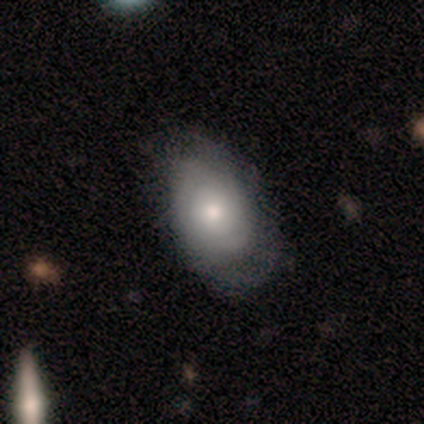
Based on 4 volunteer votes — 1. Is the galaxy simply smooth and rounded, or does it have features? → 100% smooth, 0% featured or disk, 0% star or artifact.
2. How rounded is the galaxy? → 100% in between, 0% round, 0% cigar-shaped.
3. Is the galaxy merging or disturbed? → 75% none, 25% major disturbance, 0% minor disturbance, 0% merger.